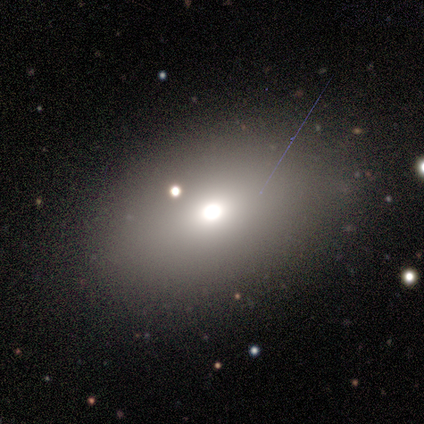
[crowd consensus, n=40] This is likely a smooth galaxy (70%). How rounded: likely in between (68%). Merging: clearly none (91%).